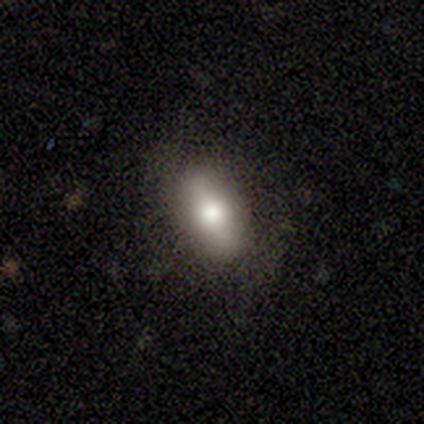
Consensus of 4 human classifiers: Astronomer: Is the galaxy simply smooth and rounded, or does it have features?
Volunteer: smooth — 50%.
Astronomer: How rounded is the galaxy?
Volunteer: in between — 100%.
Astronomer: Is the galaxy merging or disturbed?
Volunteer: none — 100%.